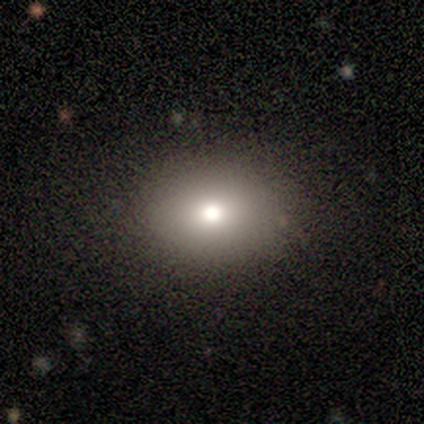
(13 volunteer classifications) A smooth galaxy with no disk features (92%) that is in between round and cigar-shaped (75%).

Vote fractions:
- Smooth or featured? smooth: 92% / star or artifact: 8% / featured or disk: 0%
- How rounded? in between: 75% / round: 25% / cigar-shaped: 0%
- Merging? none: 100% / minor disturbance: 0% / major disturbance: 0% / merger: 0%